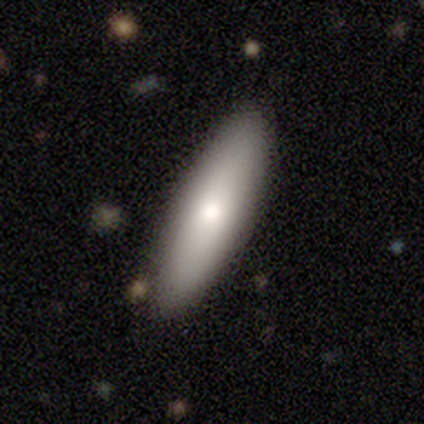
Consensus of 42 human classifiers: A smooth galaxy with no disk features (62%) that is in between round and cigar-shaped (58%).

Vote fractions:
- Smooth or featured? smooth: 62% / featured or disk: 36% / star or artifact: 2%
- How rounded? in between: 58% / cigar-shaped: 42% / round: 0%
- Merging? none: 90% / minor disturbance: 10% / major disturbance: 0% / merger: 0%